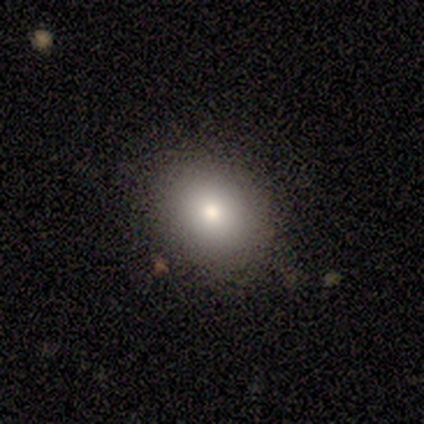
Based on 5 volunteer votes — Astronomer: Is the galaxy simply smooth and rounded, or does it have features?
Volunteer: smooth — 80%.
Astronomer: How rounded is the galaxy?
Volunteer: round — 75%.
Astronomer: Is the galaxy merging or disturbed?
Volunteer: none — 100%.